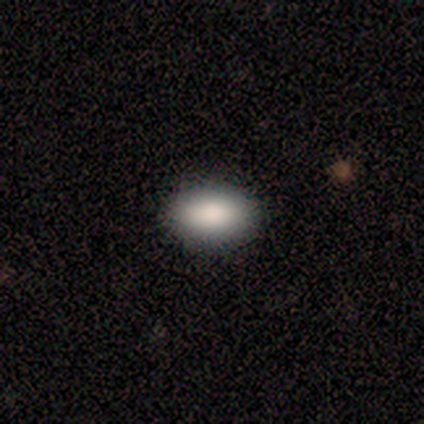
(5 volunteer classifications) Smooth or featured? smooth (100%)
How rounded? in between (100%)
Merging? none (100%)